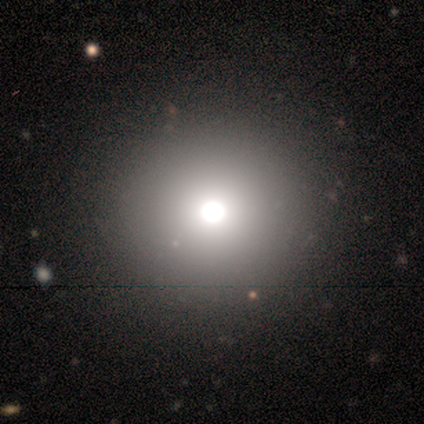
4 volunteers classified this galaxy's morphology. This is possibly a featured or disk galaxy (50%). It is clearly not viewed edge-on (100%). Bar: clearly no (100%). Spiral arm pattern: clearly no (100%). Central bulge: clearly moderate (100%). Merging: clearly none (100%).